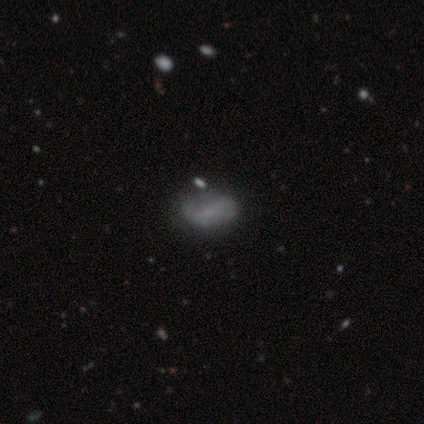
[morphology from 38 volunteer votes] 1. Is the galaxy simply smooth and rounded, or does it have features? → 53% featured or disk, 42% smooth, 5% star or artifact.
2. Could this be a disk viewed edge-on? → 100% no, 0% yes.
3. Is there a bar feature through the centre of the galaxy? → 70% no, 20% weak, 10% strong.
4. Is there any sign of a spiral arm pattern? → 50% yes (tied), 50% no (tied).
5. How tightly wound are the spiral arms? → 40% tight (tied), 40% loose (tied), 20% medium.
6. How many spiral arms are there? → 70% 2, 30% can't tell, 0% 1, 0% 3, 0% 4, 0% more than 4.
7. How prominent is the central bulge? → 50% small (tied), 50% none (tied), 0% dominant, 0% large, 0% moderate.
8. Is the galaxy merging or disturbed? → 36% none, 17% merger, 14% minor disturbance, 6% major disturbance.